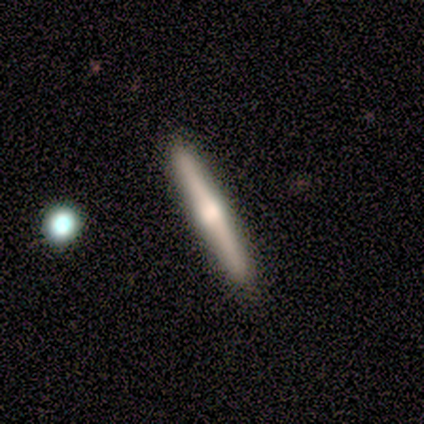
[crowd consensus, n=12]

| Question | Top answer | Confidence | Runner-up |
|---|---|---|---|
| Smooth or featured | featured or disk | 67% | smooth (33%) |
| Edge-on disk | yes | 100% | — |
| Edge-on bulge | rounded | 88% | none (12%) |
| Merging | none | 92% | merger (8%) |